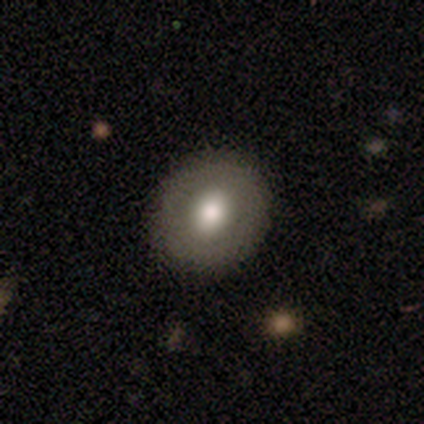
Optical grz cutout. It shows a featured or disk galaxy (80%) with no bar (100%), no spiral arms (100%) and a moderate central bulge (75%). Merging: none (100%).